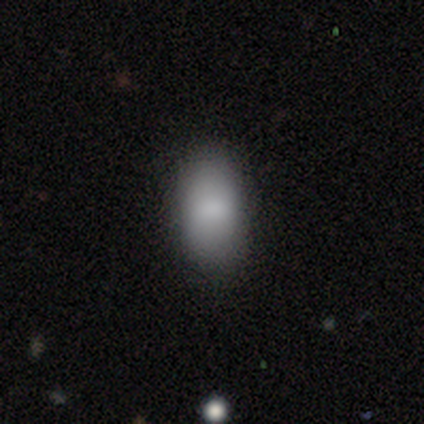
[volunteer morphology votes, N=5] Smooth or featured? smooth (100%)
How rounded? in between (80%)
Merging? none (100%)